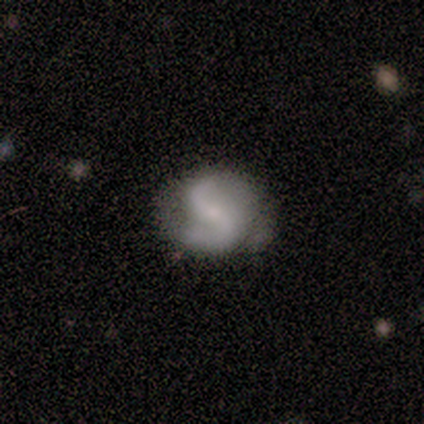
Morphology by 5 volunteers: Smooth or featured?
  - featured or disk: 100% *
  - smooth: 0%
  - star or artifact: 0%
Edge-on disk?
  - no: 100% *
  - yes: 0%
Bar?
  - strong: 40% * (tied)
  - no: 40% * (tied)
  - weak: 20%
Spiral arms?
  - yes: 100% *
  - no: 0%
Spiral winding?
  - loose: 60% *
  - tight: 20%
  - medium: 20%
Spiral arm count?
  - 2: 80% *
  - 1: 20%
  - 3: 0%
  - 4: 0%
  - more than 4: 0%
  - can't tell: 0%
Bulge size?
  - small: 60% *
  - large: 20%
  - none: 20%
  - dominant: 0%
  - moderate: 0%
Merging?
  - minor disturbance: 60% *
  - none: 40%
  - major disturbance: 0%
  - merger: 0%